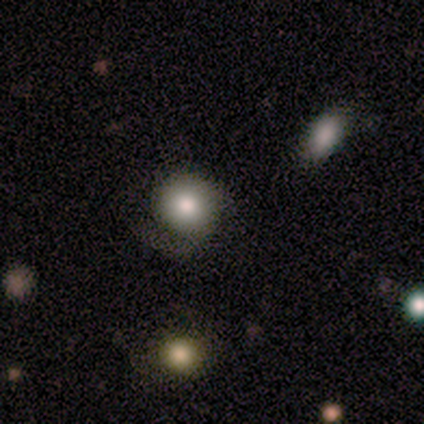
A smooth galaxy with no disk features (100%) that is round (75%).

Vote fractions:
- Smooth or featured? smooth: 100% / featured or disk: 0% / star or artifact: 0%
- How rounded? round: 75% / in between: 25% / cigar-shaped: 0%
- Merging? none: 75% / minor disturbance: 25% / major disturbance: 0% / merger: 0%